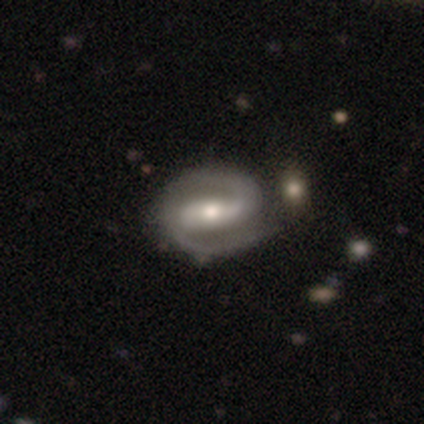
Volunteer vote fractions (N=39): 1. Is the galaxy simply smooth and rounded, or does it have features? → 90% featured or disk, 5% smooth, 5% star or artifact.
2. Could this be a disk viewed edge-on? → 100% no, 0% yes.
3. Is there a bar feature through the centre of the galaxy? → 66% strong, 29% weak, 6% no.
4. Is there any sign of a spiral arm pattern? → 100% yes, 0% no.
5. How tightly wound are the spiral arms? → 63% medium, 29% tight, 9% loose.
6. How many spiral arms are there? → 97% 2, 3% can't tell, 0% 1, 0% 3, 0% 4, 0% more than 4.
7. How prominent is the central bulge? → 74% moderate, 14% small, 11% large, 0% dominant, 0% none.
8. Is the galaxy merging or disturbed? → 54% none, 14% merger, 11% minor disturbance, 0% major disturbance.